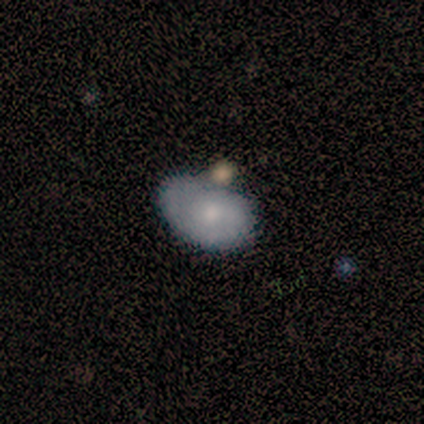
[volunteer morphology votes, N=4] Smooth or featured?
  - smooth: 75% *
  - featured or disk: 25%
  - star or artifact: 0%
How rounded?
  - in between: 67% *
  - cigar-shaped: 33%
  - round: 0%
Merging?
  - none: 50% *
  - minor disturbance: 25%
  - merger: 25%
  - major disturbance: 0%